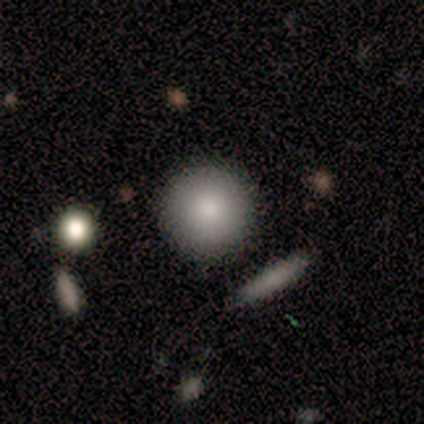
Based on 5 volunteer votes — Smooth or featured? 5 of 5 (100%) said smooth. How rounded? 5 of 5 (100%) said round. Merging? 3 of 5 (60%) said none.